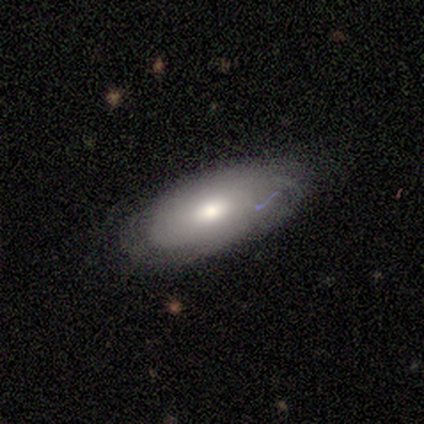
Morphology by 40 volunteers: Overall: smooth (57%; featured or disk 35%). How rounded: in between (100%). Merging: none (70%).